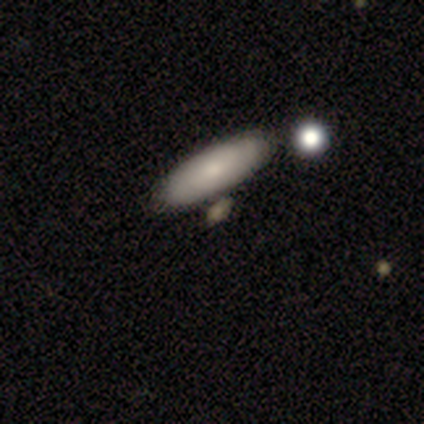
Volunteers were most divided on "how rounded" (2-way tie): in between: 50%, cigar-shaped: 50%, round: 0%; "merging" (2-way tie): none: 50%, minor disturbance: 50%, major disturbance: 0%, merger: 0%. More confident: smooth or featured — smooth (100%).